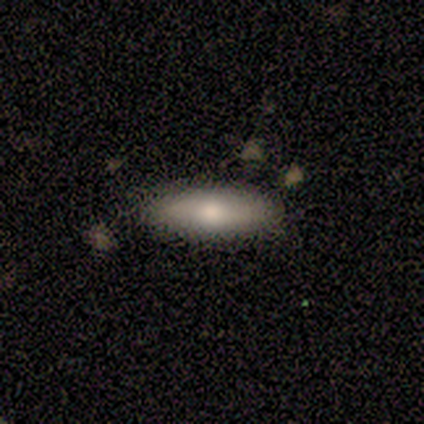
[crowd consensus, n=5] This appears to be a smooth galaxy with no disk features (60%) that is cigar-shaped (67%). Merging: none (75%).